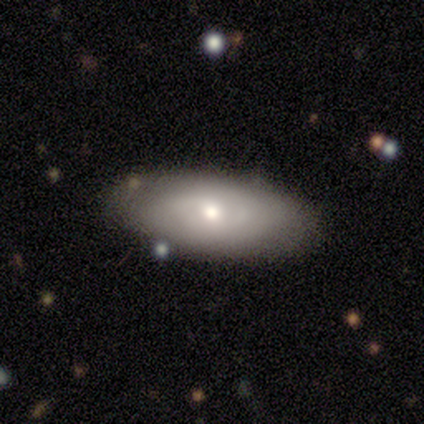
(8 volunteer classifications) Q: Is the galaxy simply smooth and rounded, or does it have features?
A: smooth — 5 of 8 (62%).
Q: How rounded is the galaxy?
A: in between — 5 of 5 (100%).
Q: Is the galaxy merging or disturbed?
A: none — 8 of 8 (100%).